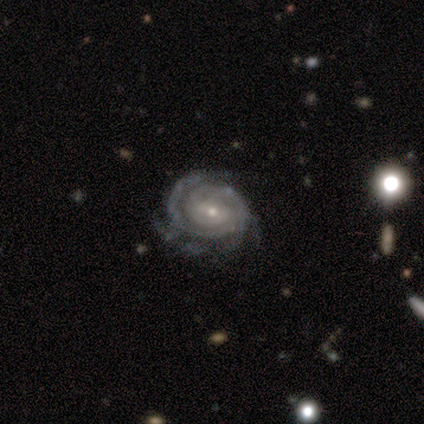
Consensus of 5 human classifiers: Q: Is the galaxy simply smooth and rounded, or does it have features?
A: featured or disk — 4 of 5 (80%).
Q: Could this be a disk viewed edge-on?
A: no — 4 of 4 (100%).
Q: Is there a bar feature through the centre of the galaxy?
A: weak — 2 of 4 (50%, tied with no).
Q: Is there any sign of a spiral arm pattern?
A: yes — 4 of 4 (100%).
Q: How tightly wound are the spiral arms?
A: tight — 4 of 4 (100%).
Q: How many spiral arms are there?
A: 3 — 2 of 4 (50%).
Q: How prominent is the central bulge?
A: small — 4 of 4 (100%).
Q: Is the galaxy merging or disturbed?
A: none — 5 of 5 (100%).